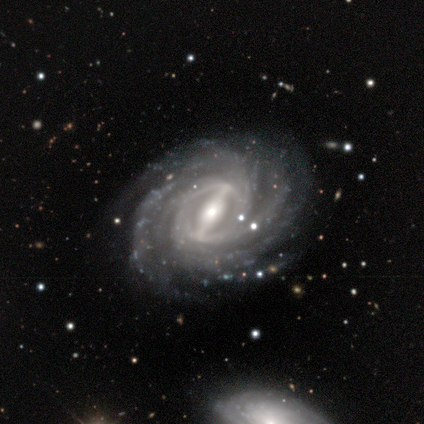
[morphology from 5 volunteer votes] This appears to be a featured or disk galaxy (100%) with a strong bar (100%), 4 (60%) tight (100%) spiral arms (100%) and a moderate central bulge (60%). Merging: none (60%).